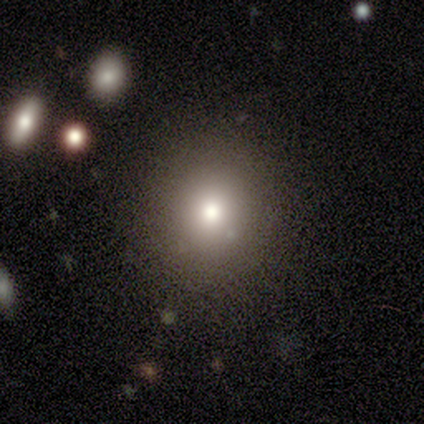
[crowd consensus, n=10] Smooth or featured? 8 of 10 (80%) said smooth. How rounded? 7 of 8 (88%) said round. Merging? 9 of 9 (100%) said none.